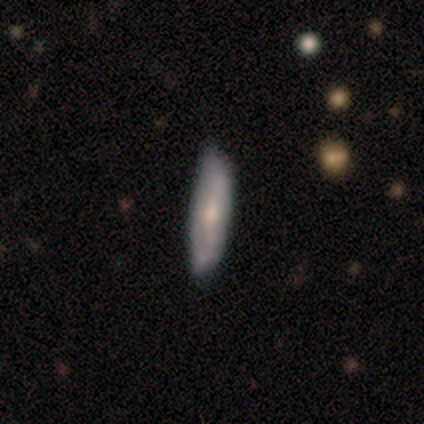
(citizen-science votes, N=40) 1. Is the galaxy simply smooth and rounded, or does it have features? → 65% smooth, 28% featured or disk, 8% star or artifact.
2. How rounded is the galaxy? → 77% cigar-shaped, 23% in between, 0% round.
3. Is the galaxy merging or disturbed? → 81% none, 19% minor disturbance, 0% major disturbance, 0% merger.